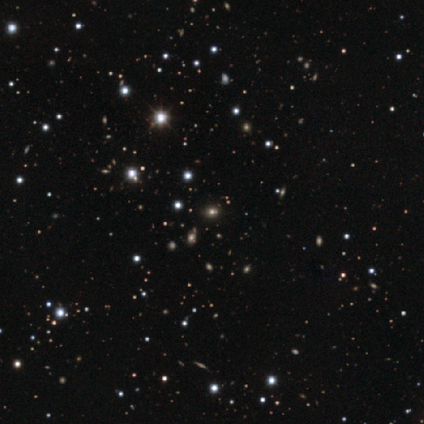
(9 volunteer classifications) Smooth or featured: star or artifact — 67% (smooth — 22%)